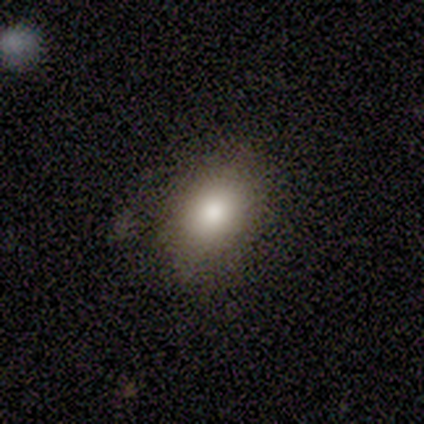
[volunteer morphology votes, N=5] smooth 80%, star or artifact 20%, featured or disk 0%. Down the decision tree: how rounded — in between (75%); merging — none (50%).